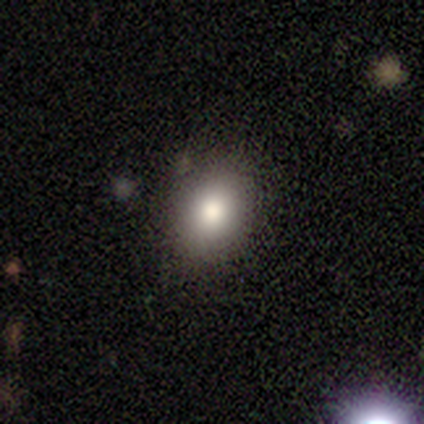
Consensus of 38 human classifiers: Overall: smooth (82%). How rounded: in between (58%; round 42%). Merging: none (89%).